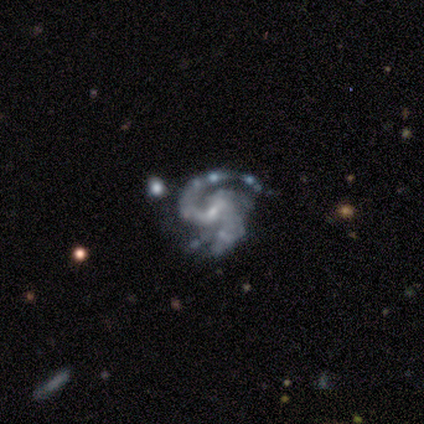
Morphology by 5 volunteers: Volunteers were most divided on "bar": weak: 60%, no: 40%, strong: 0%. More confident: smooth or featured — featured or disk (100%); edge-on disk — no (100%); spiral arms — yes (100%); bulge size — small (80%); spiral winding — medium (60%); spiral arm count — 1 (60%); merging — major disturbance (60%).